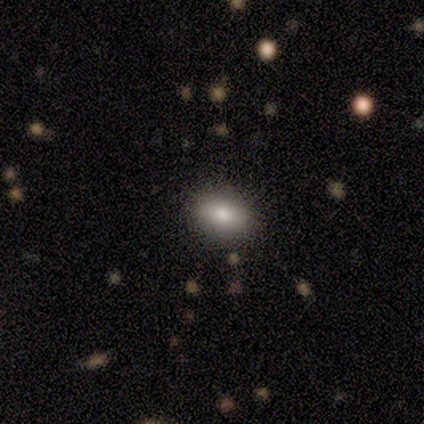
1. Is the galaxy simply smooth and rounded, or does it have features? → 100% smooth, 0% featured or disk, 0% star or artifact.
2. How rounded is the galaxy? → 100% in between, 0% round, 0% cigar-shaped.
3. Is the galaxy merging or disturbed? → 100% none, 0% minor disturbance, 0% major disturbance, 0% merger.